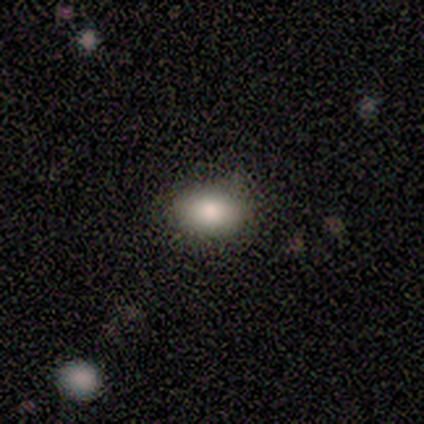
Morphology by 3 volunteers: Consensus on every question: smooth or featured — smooth (100%); how rounded — in between (100%); merging — none (100%).